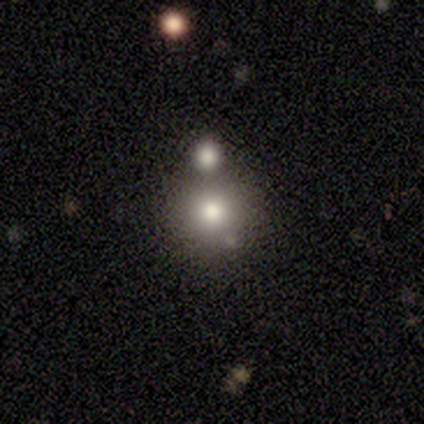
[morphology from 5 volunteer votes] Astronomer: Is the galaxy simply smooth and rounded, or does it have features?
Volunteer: star or artifact — 60% (runner-up: smooth, 40%).